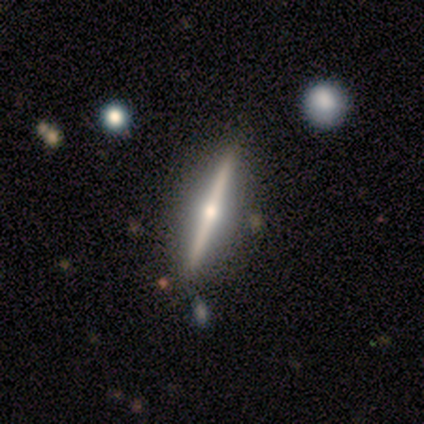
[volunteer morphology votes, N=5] featured or disk 100%, smooth 0%, star or artifact 0%. Down the decision tree: edge-on disk — yes (100%); edge-on bulge — rounded (100%); merging — none (80%).